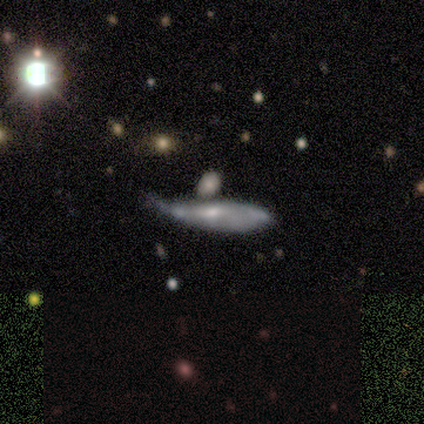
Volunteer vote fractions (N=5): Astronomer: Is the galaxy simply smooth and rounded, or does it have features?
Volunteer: featured or disk — 60% (runner-up: smooth, 40%).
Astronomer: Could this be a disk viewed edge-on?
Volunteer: no — 100%.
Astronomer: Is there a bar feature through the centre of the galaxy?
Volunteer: no — 67%.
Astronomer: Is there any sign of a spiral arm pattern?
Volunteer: no — 67%.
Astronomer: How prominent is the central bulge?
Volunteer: small — 67%.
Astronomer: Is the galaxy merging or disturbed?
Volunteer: major disturbance — 40%, tied with merger at 40%.